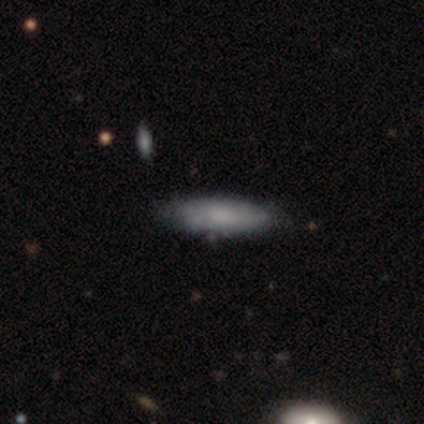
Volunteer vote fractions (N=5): Morphology: type=smooth (80%); roundness=in between (50%); merging=none (100%).